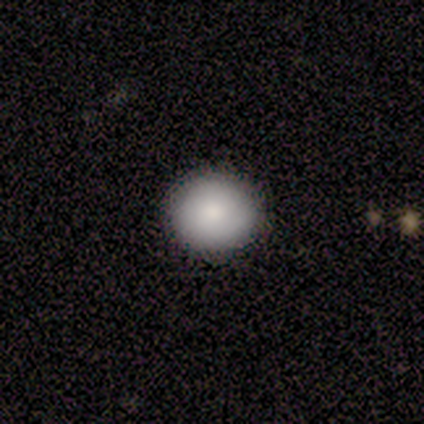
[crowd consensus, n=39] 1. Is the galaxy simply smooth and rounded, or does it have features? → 90% smooth, 10% featured or disk, 0% star or artifact.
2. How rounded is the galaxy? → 89% round, 11% in between, 0% cigar-shaped.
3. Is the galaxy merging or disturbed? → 46% none, 3% minor disturbance, 3% major disturbance, 0% merger.